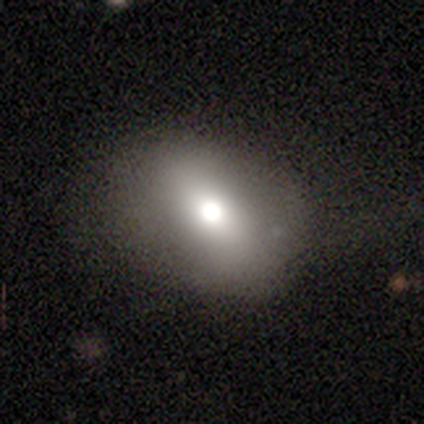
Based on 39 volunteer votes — A smooth galaxy with no disk features (72%) that is in between round and cigar-shaped (68%). Merging: none (78%).